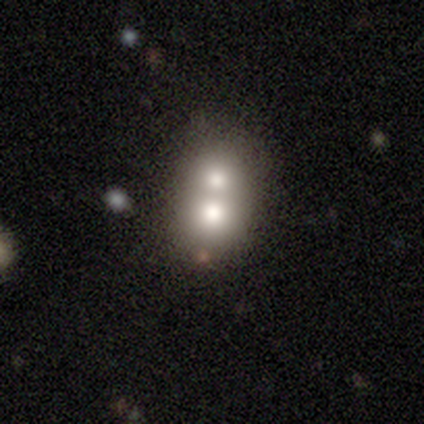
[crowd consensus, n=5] Smooth or featured? star or artifact (60%)